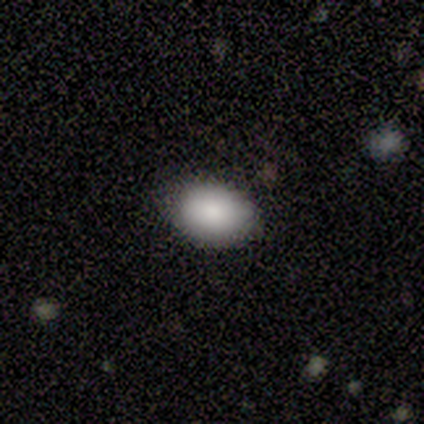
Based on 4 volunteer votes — A smooth galaxy with no disk features (75%) that is in between round and cigar-shaped (67%). Merging: none (67%).